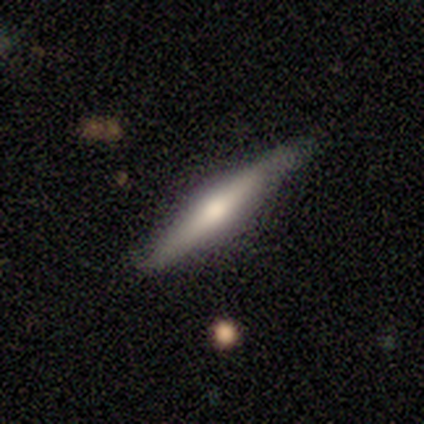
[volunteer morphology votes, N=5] Smooth or featured? featured or disk (80%)
Edge-on disk? yes (100%)
Edge-on bulge? rounded (75%)
Merging? none (40%, tied with minor disturbance)